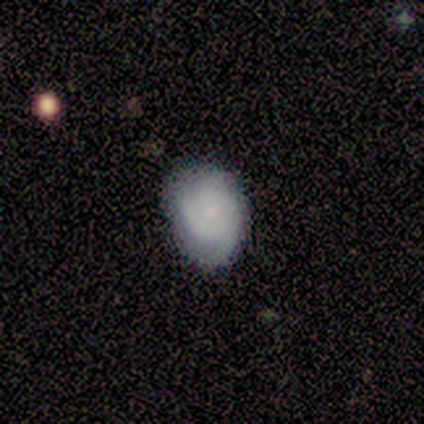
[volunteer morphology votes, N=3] This appears to be a featured or disk galaxy (100%) with no bar (100%), 2 (33%, tied with 3 and can't tell) tight (67%) spiral arms (100%) and a small central bulge (100%). Merging: none (67%).